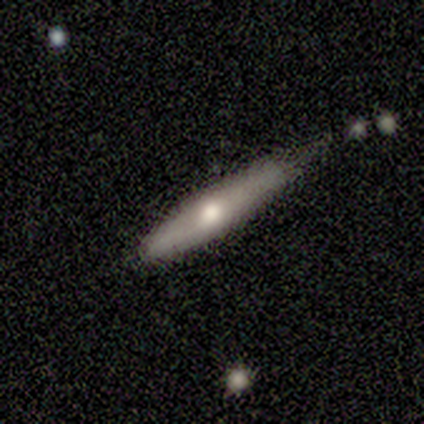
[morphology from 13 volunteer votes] smooth_or_featured: smooth (p=0.54) [alt: featured or disk p=0.46]
how_rounded: cigar-shaped (p=0.86) [alt: in between p=0.14]
merging: none (p=0.62) [alt: minor disturbance p=0.38]